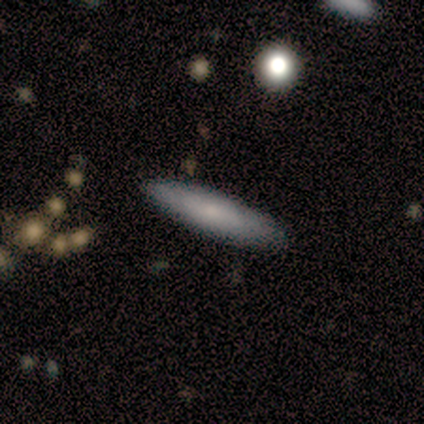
A smooth galaxy with no disk features (60%) that is cigar-shaped (67%). Merging: none (100%).